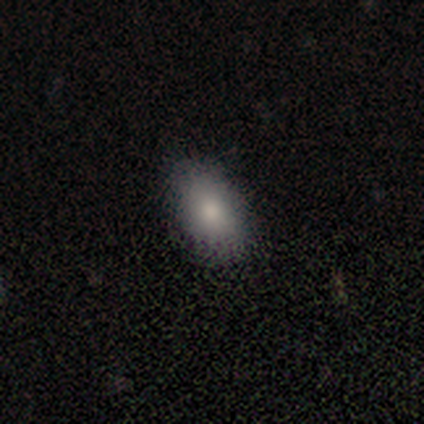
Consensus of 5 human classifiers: This appears to be a smooth galaxy with no disk features (100%) that is in between round and cigar-shaped (100%). Merging: none (100%).